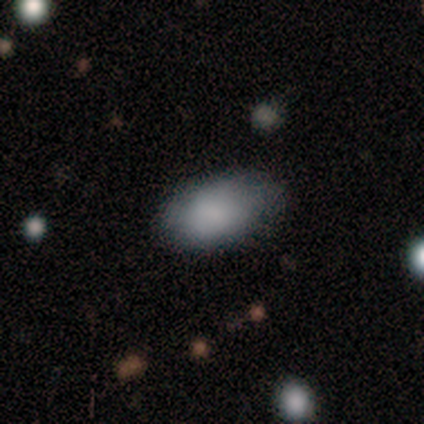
Smooth or featured? smooth (80%)
How rounded? in between (100%)
Merging? none (40%, tied with minor disturbance)